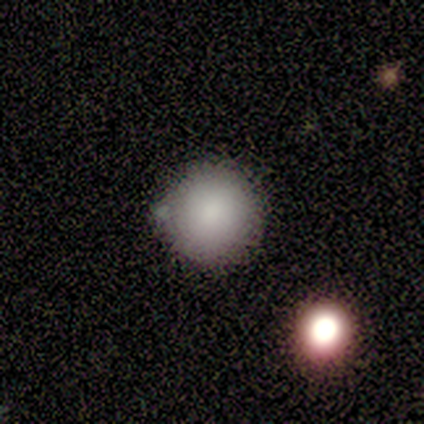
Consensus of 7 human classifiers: This appears to be a smooth galaxy with no disk features (86%) that is round (100%). Merging: none (67%).